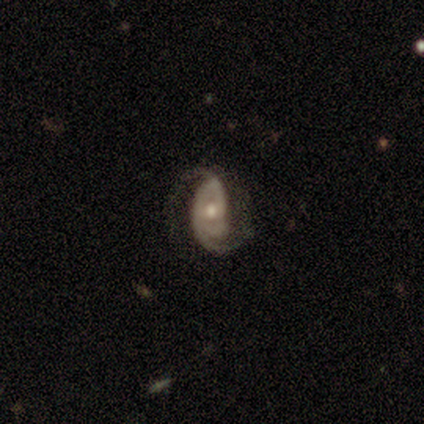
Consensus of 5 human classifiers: Smooth or featured: featured or disk — 100%
Edge-on disk: no — 100%
Bar: strong — 40% (tied with no — 40%)
Spiral arms: yes — 60% (no — 40%)
Spiral winding: medium — 67% (tight — 33%)
Spiral arm count: 2 — 33% (tied with 4 — 33%; can't tell — 33%)
Bulge size: small — 60% (moderate — 40%)
Merging: major disturbance — 60% (none — 20%)